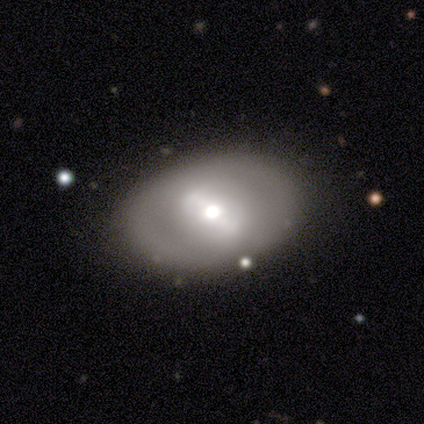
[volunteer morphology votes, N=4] Overall: featured or disk (75%). Edge-on disk: no (100%). Bar: strong (67%; no 33%). Spiral arms: no (67%; yes 33%). Bulge size: large (100%). Merging: none (100%).